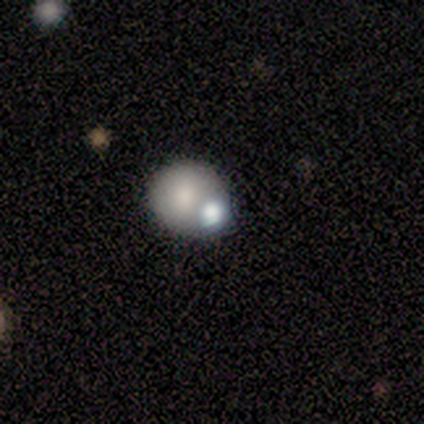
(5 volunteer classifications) Overall: smooth (80%). How rounded: round (75%). Merging: merger (100%).